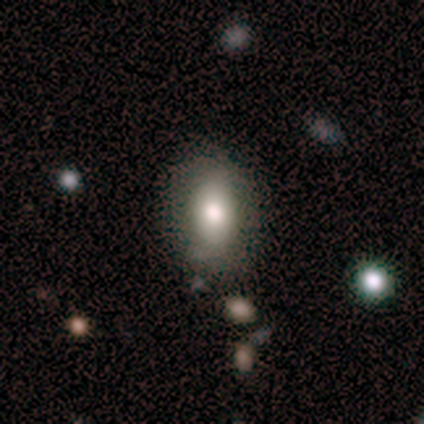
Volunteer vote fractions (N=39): smooth-or-featured: smooth: 79% | featured or disk: 15% | star or artifact: 5%
  how-rounded: in between: 84% | round: 13% | cigar-shaped: 3%
  merging: none: 78% | minor disturbance: 14% | major disturbance: 8% | merger: 0%